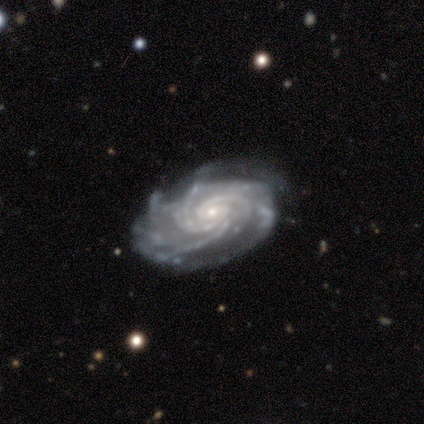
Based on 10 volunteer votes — A featured or disk galaxy (100%) with no bar (90%), 3 (50%) tight (70%) spiral arms (100%) and a small central bulge (60%). Merging: none (60%).